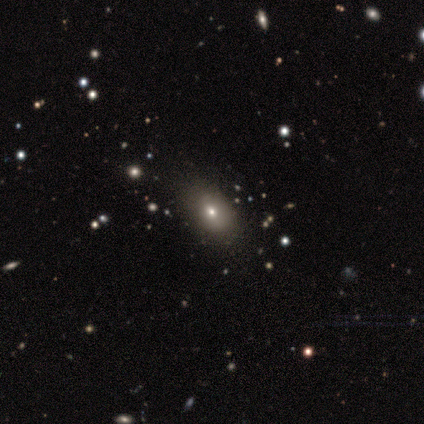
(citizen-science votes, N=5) Overall: smooth (100%). How rounded: in between (80%). Merging: none (40%; minor disturbance 20%).